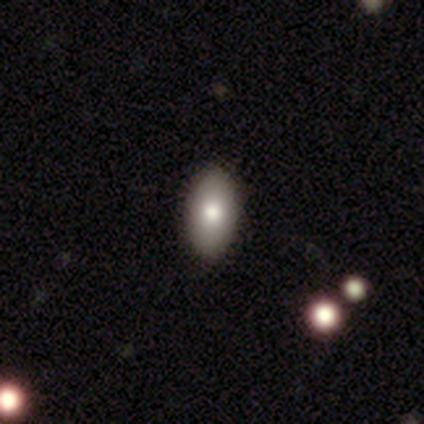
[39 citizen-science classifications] Smooth or featured?
  - smooth: 90% *
  - featured or disk: 5%
  - star or artifact: 5%
How rounded?
  - in between: 97% *
  - cigar-shaped: 3%
  - round: 0%
Merging?
  - none: 95% *
  - minor disturbance: 5%
  - major disturbance: 0%
  - merger: 0%